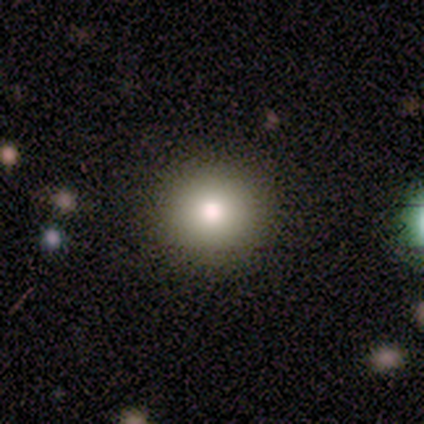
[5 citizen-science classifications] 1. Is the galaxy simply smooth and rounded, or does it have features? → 60% smooth, 20% featured or disk, 20% star or artifact.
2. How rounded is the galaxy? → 100% round, 0% in between, 0% cigar-shaped.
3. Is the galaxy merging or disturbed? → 100% none, 0% minor disturbance, 0% major disturbance, 0% merger.